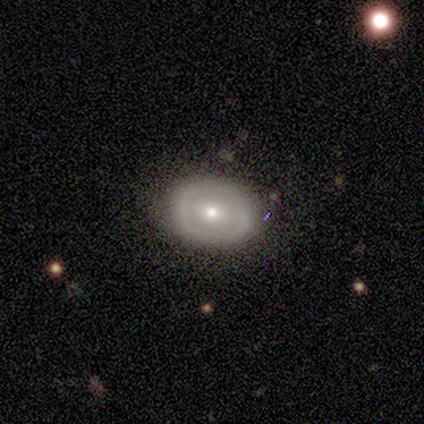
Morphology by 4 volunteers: smooth-or-featured: smooth: 75% | featured or disk: 25% | star or artifact: 0%
  how-rounded: in between: 67% | round: 33% | cigar-shaped: 0%
  merging: none: 100% | minor disturbance: 0% | major disturbance: 0% | merger: 0%